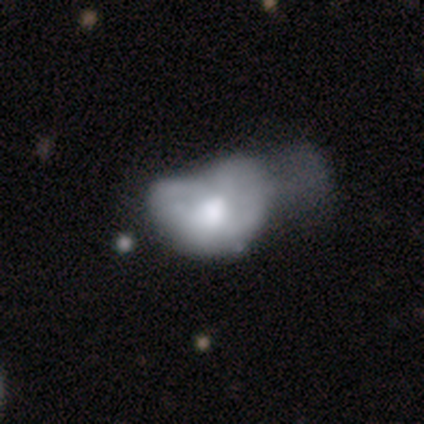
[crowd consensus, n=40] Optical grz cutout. It shows a featured or disk galaxy (65%) with no bar (88%), no spiral arms (96%) and a moderate central bulge (42%). Merging: major disturbance (53%).